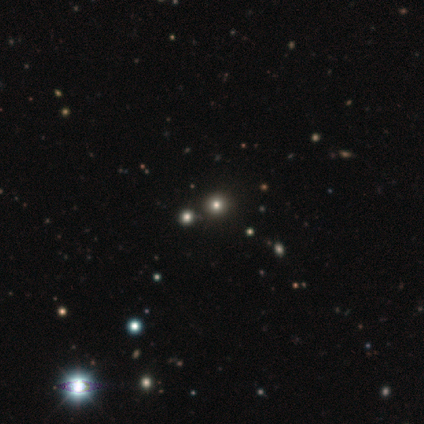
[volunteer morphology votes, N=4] Overall: star or artifact (75%).